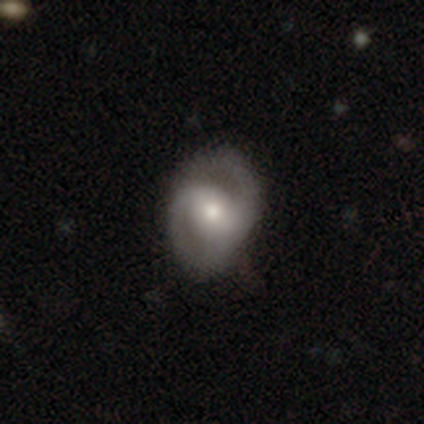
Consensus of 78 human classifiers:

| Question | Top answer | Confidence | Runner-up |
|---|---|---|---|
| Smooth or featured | featured or disk | 87% | smooth (9%) |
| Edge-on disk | no | 97% | yes (3%) |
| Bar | weak | 39% | tied: no (39%) |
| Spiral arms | yes | 98% | no (2%) |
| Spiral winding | medium | 52% | tight (28%) |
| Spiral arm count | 2 | 86% | can't tell (9%) |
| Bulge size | moderate | 58% | small (30%) |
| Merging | none | 35% | minor disturbance (15%) |